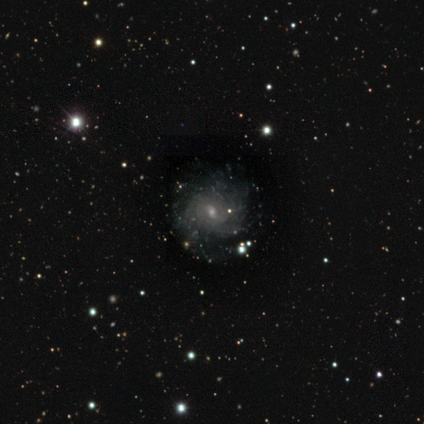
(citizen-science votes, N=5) featured or disk 80%, smooth 20%, star or artifact 0%. Down the decision tree: edge-on disk — no (100%); bar — no (50%); spiral arms — yes (100%); spiral arm count — can't tell (75%); spiral winding — tight (75%); bulge size — small (100%); merging — none (100%).